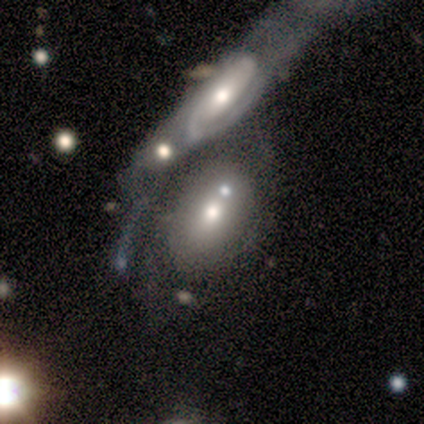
A featured or disk galaxy (50%) with no bar (83%), 2 (44%) medium (67%) spiral arms (50%, tied with no) and a moderate central bulge (67%).

Vote fractions:
- Smooth or featured? featured or disk: 50% / smooth: 45% / star or artifact: 5%
- Edge-on disk? no: 90% / yes: 10%
- Bar? no: 83% / strong: 17% / weak: 0%
- Spiral arms? yes: 50% (tied) / no: 50% (tied)
- Spiral winding? medium: 67% / tight: 22% / loose: 11%
- Spiral arm count? 2: 44% / 1: 22% / can't tell: 22% / 4: 11% / 3: 0% / more than 4: 0%
- Bulge size? moderate: 67% / large: 17% / small: 17% / dominant: 0% / none: 0%
- Merging? merger: 71% / none: 13% / minor disturbance: 8% / major disturbance: 8%